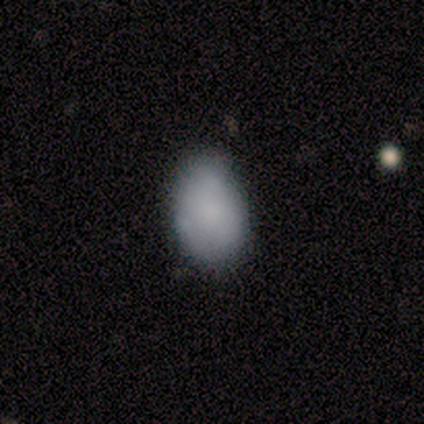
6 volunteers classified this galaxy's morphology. This appears to be a smooth galaxy with no disk features (100%) that is in between round and cigar-shaped (100%). Merging: minor disturbance (67%).